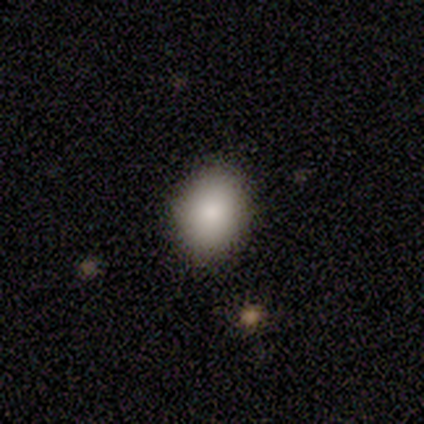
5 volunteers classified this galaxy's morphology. This appears to be a smooth galaxy with no disk features (100%) that is in between round and cigar-shaped (60%). Merging: none (80%).